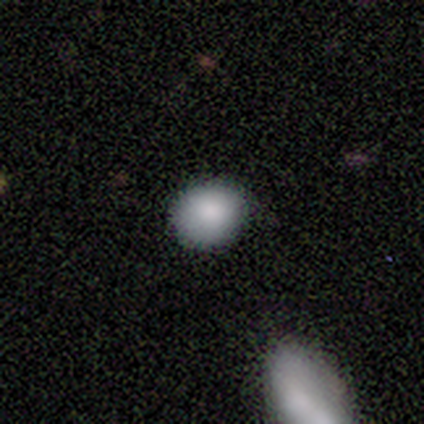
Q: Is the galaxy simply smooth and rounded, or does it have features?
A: smooth — 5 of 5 (100%).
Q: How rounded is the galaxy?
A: round — 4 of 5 (80%).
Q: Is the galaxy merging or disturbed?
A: none — 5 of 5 (100%).